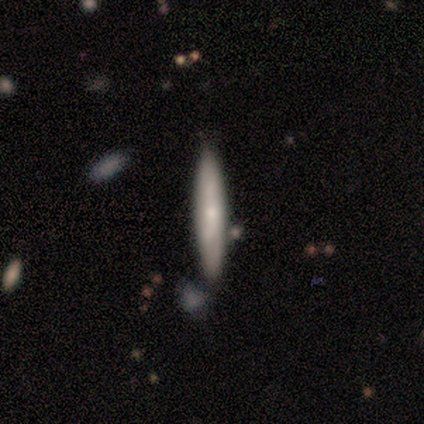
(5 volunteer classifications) Morphology: type=featured or disk (80%); edge-on=yes (75%); edge-on bulge=rounded (67%); merging=none (100%).